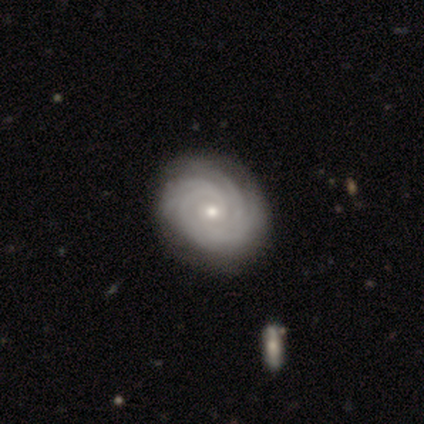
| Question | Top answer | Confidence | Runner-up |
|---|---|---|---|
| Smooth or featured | featured or disk | 92% | smooth (5%) |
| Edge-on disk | no | 100% | — |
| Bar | no | 94% | weak (6%) |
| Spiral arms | yes | 97% | no (3%) |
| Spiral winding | tight | 89% | medium (11%) |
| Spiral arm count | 4 | 29% | tied: can't tell (29%) |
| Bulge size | small | 64% | moderate (31%) |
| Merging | none | 89% | minor disturbance (11%) |